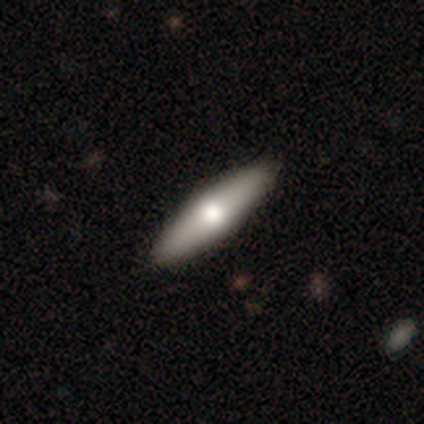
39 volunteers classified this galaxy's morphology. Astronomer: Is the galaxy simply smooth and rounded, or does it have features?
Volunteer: smooth — 56% (runner-up: featured or disk, 38%).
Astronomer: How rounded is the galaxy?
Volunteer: cigar-shaped — 55% (runner-up: in between, 45%).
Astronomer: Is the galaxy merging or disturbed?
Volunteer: none — 70%.